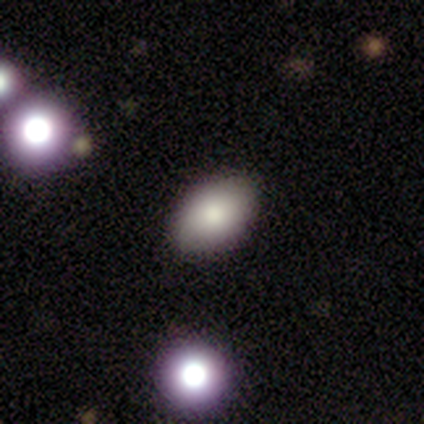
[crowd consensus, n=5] smooth-or-featured: smooth: 60% | star or artifact: 40% | featured or disk: 0%
  how-rounded: in between: 100% | round: 0% | cigar-shaped: 0%
  merging: none: 67% | minor disturbance: 33% | major disturbance: 0% | merger: 0%